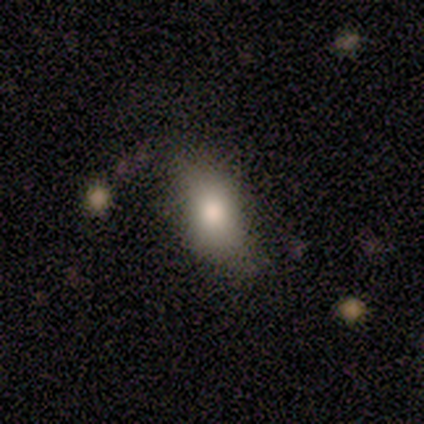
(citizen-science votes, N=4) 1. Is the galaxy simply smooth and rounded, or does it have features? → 75% smooth, 25% star or artifact, 0% featured or disk.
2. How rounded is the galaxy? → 100% in between, 0% round, 0% cigar-shaped.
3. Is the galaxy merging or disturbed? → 67% none, 33% minor disturbance, 0% major disturbance, 0% merger.